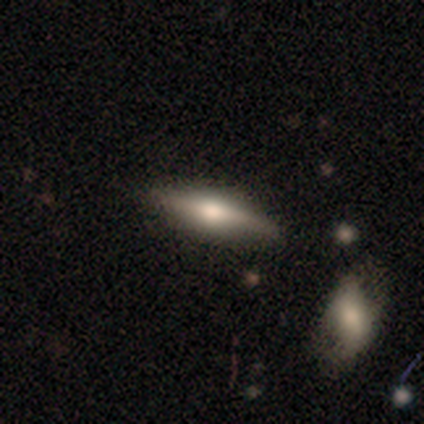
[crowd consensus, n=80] Smooth or featured? featured or disk (52%)
Edge-on disk? yes (95%)
Edge-on bulge? rounded (85%)
Merging? none (41%)